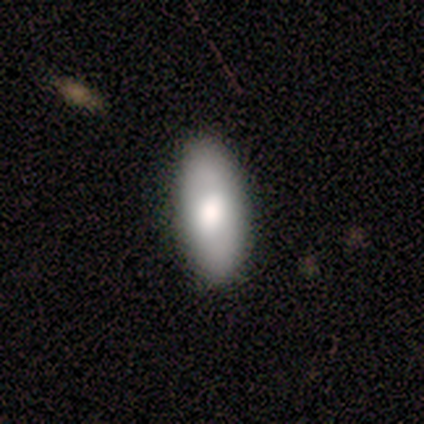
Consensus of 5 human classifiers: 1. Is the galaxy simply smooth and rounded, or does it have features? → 60% smooth, 40% featured or disk, 0% star or artifact.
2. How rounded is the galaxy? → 100% in between, 0% round, 0% cigar-shaped.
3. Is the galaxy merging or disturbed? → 80% none, 20% minor disturbance, 0% major disturbance, 0% merger.